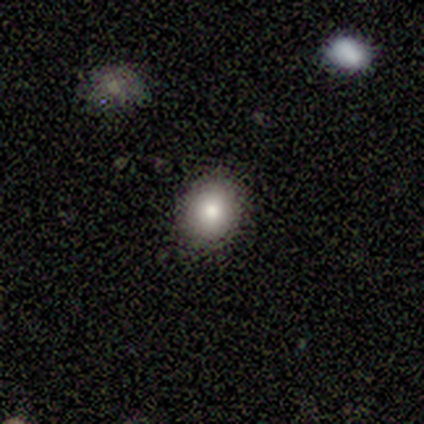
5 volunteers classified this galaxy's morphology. Q: Smooth or featured?
A: smooth (100%)
Q: How rounded?
A: round (100%)
Q: Merging?
A: none (100%)